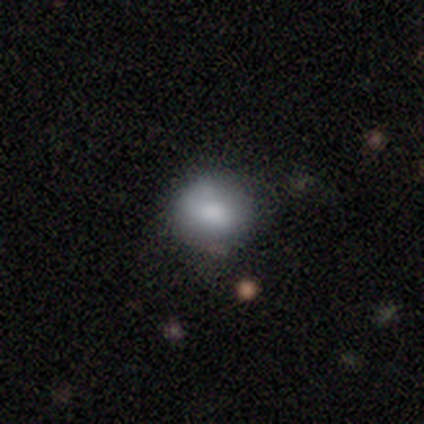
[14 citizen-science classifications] A smooth galaxy with no disk features (64%) that is round (89%). Merging: none (67%).